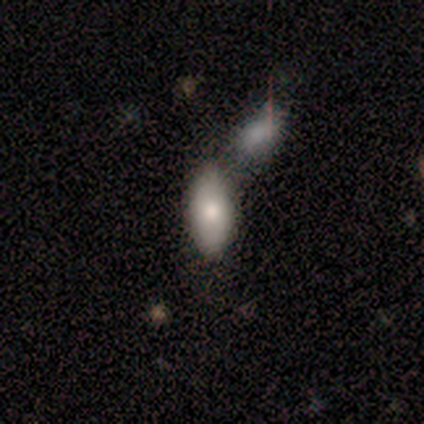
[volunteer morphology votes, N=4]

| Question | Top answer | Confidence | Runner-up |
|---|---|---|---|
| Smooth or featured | smooth | 100% | — |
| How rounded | in between | 100% | — |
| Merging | merger | 50% | none (25%) |